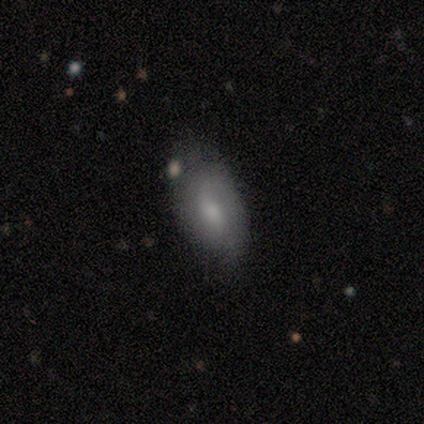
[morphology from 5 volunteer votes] type=smooth (60%); roundness=in between (100%); merging=none (80%).